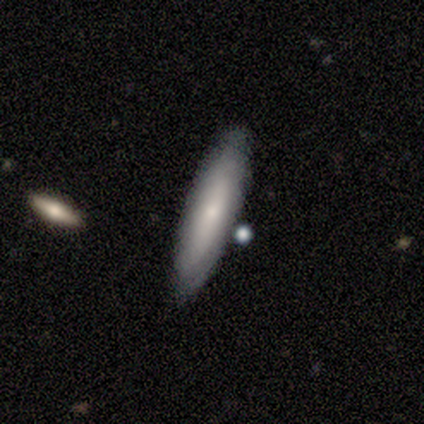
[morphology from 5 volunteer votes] Smooth or featured? 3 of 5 (60%) said smooth. How rounded? 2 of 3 (67%) said cigar-shaped. Merging? 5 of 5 (100%) said none.